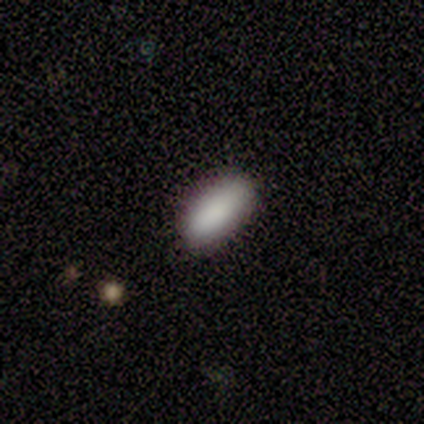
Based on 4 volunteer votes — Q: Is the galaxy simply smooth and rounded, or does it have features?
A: smooth — 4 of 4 (100%).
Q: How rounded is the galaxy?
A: in between — 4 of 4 (100%).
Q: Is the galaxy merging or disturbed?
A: none — 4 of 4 (100%).